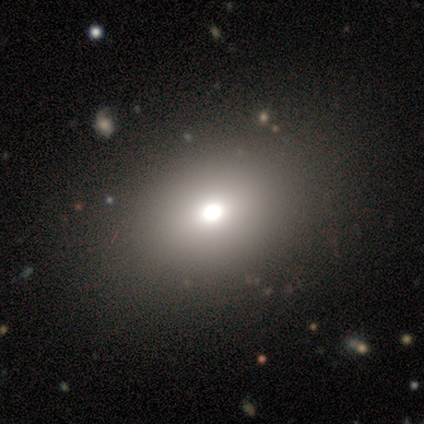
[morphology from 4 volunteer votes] This appears to be a smooth galaxy with no disk features (75%) that is in between round and cigar-shaped (67%). Merging: none (100%).